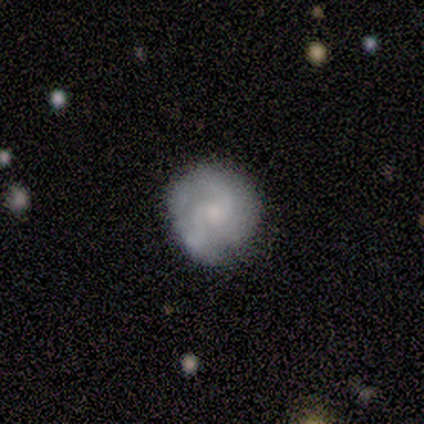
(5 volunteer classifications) A featured or disk galaxy (60%) with no bar (100%), 2 (67%) tight (67%) spiral arms (100%) and a moderate central bulge (67%).

Vote fractions:
- Smooth or featured? featured or disk: 60% / smooth: 40% / star or artifact: 0%
- Edge-on disk? no: 100% / yes: 0%
- Bar? no: 100% / strong: 0% / weak: 0%
- Spiral arms? yes: 100% / no: 0%
- Spiral winding? tight: 67% / medium: 33% / loose: 0%
- Spiral arm count? 2: 67% / 3: 33% / 1: 0% / 4: 0% / more than 4: 0% / can't tell: 0%
- Bulge size? moderate: 67% / small: 33% / dominant: 0% / large: 0% / none: 0%
- Merging? none: 60% / minor disturbance: 20% / major disturbance: 20% / merger: 0%